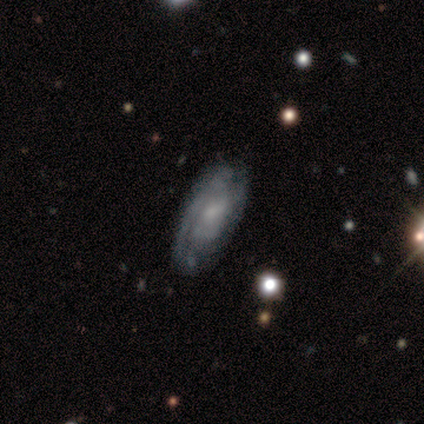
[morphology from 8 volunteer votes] Smooth or featured? featured or disk (75%)
Edge-on disk? no (83%)
Bar? no (100%)
Spiral arms? yes (80%)
Spiral winding? tight (50%, tied with medium)
Spiral arm count? can't tell (50%)
Bulge size? small (60%)
Merging? none (86%)